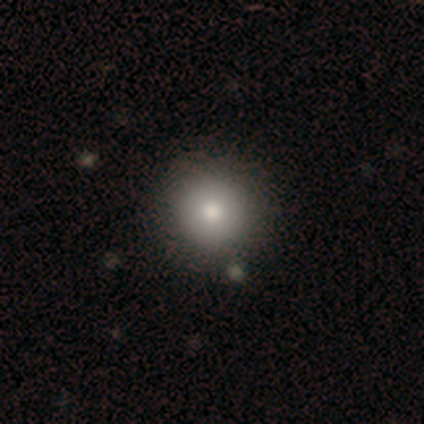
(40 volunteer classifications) Overall: smooth (78%). How rounded: round (94%). Merging: none (69%).